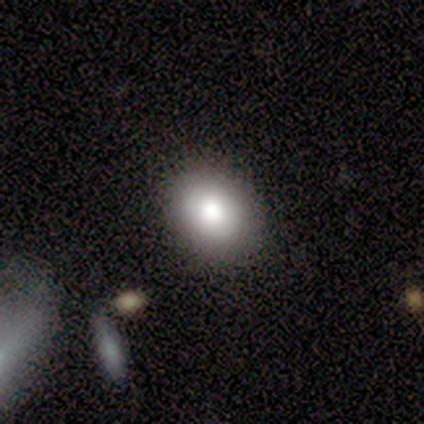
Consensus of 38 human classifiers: Smooth or featured? 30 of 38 (79%) said smooth. How rounded? 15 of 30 (50%, tied with in between) said round. Merging? 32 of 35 (91%) said none.